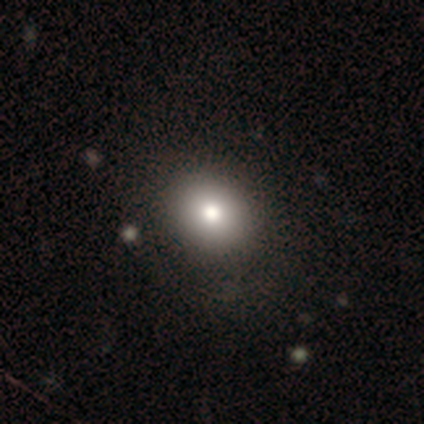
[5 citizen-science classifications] smooth-or-featured: smooth: 100% | featured or disk: 0% | star or artifact: 0%
  how-rounded: round: 60% | in between: 40% | cigar-shaped: 0%
  merging: none: 80% | minor disturbance: 20% | major disturbance: 0% | merger: 0%